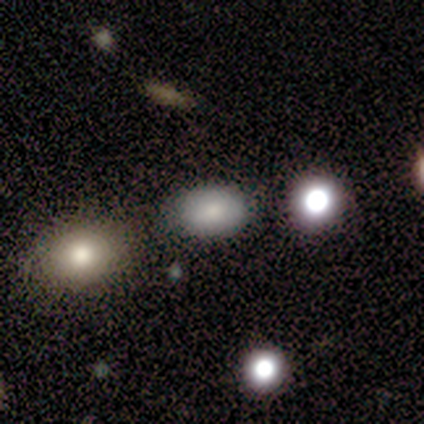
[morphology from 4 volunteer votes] A smooth galaxy with no disk features (50%, tied with star or artifact) that is in between round and cigar-shaped (100%). Merging: none (100%).